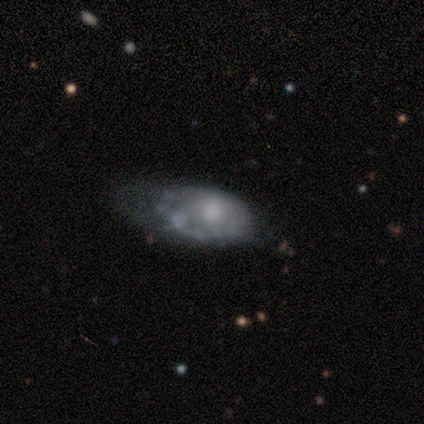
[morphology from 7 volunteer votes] Smooth or featured? 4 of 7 (57%) said smooth. How rounded? 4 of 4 (100%) said in between. Merging? 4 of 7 (57%) said minor disturbance.